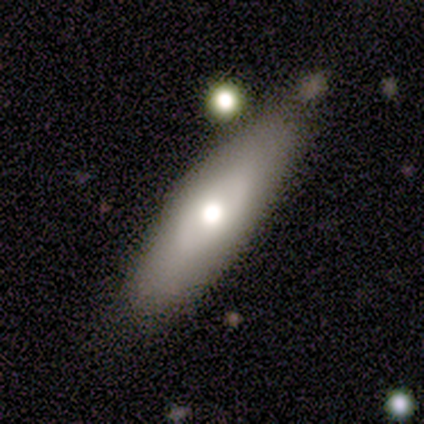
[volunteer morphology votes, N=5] Smooth or featured? smooth (60%)
How rounded? in between (67%)
Merging? none (80%)